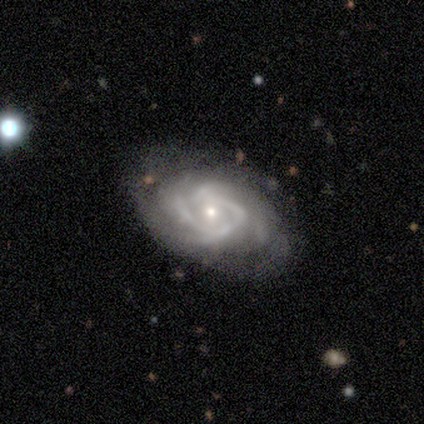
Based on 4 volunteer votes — smooth_or_featured: featured or disk (p=1.00)
disk_edge_on: no (p=0.75) [alt: yes p=0.25]
bar: no (p=0.67) [alt: weak p=0.33]
has_spiral_arms: yes (p=0.67) [alt: no p=0.33]
spiral_winding: tight (p=1.00)
spiral_arm_count: 4 (p=1.00)
bulge_size: small (p=1.00)
merging: none (p=0.75) [alt: minor disturbance p=0.25]